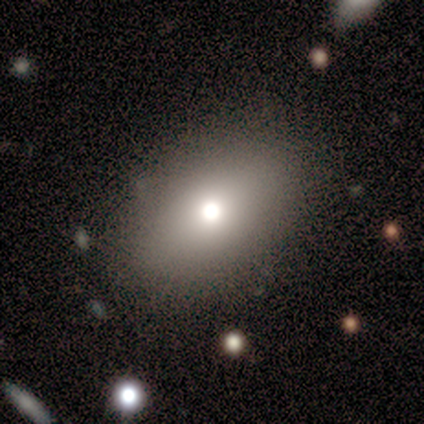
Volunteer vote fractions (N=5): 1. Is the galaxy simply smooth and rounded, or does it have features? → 40% smooth (tied), 40% star or artifact (tied), 20% featured or disk.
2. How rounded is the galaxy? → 100% in between, 0% round, 0% cigar-shaped.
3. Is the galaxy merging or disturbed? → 100% none, 0% minor disturbance, 0% major disturbance, 0% merger.